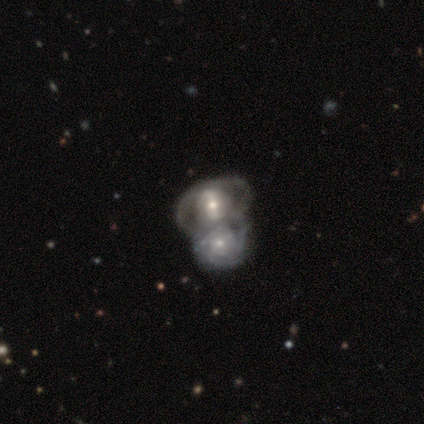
Q: Smooth or featured?
A: featured or disk (100%)
Q: Edge-on disk?
A: no (100%)
Q: Bar?
A: weak (40%); tied with: no (40%)
Q: Spiral arms?
A: yes (60%); runner-up: no (40%)
Q: Spiral winding?
A: loose (67%); runner-up: tight (33%)
Q: Spiral arm count?
A: 2 (67%); runner-up: can't tell (33%)
Q: Bulge size?
A: small (60%); runner-up: moderate (20%)
Q: Merging?
A: merger (80%); runner-up: major disturbance (20%)